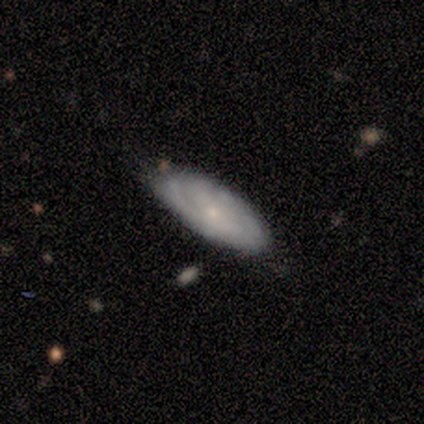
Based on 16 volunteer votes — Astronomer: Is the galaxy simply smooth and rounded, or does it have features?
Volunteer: featured or disk — 56% (runner-up: smooth, 38%).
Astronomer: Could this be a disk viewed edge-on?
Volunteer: no — 100%.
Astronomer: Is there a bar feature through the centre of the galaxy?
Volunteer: no — 67%.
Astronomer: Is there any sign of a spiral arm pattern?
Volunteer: yes — 89%.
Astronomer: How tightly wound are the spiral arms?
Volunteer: tight — 50%, tied with medium at 50%.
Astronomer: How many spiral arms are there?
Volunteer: can't tell — 62%.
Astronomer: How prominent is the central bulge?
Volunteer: small — 78%.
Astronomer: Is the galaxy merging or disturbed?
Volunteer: none — 93%.